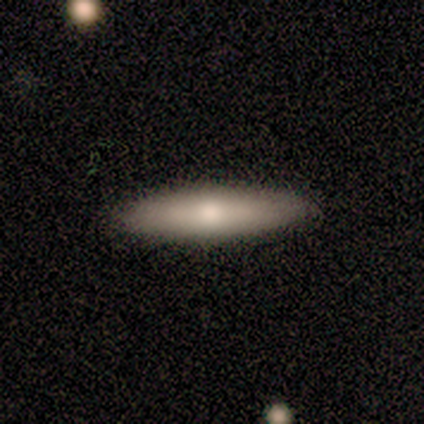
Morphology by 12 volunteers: smooth_or_featured: smooth (p=0.83) [alt: featured or disk p=0.08]
how_rounded: cigar-shaped (p=0.80) [alt: in between p=0.20]
merging: none (p=0.91) [alt: major disturbance p=0.09]